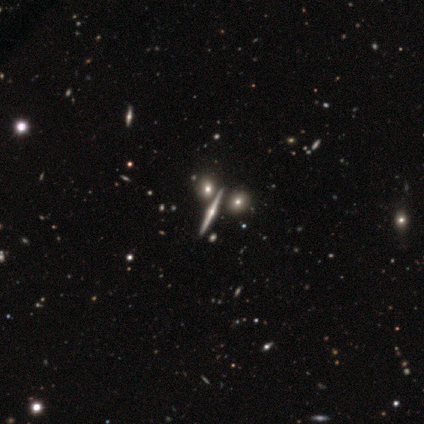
This is clearly a featured or disk galaxy (100%). It is clearly viewed edge-on (100%). Edge-on bulge: clearly rounded (100%). Merging: clearly none (100%).